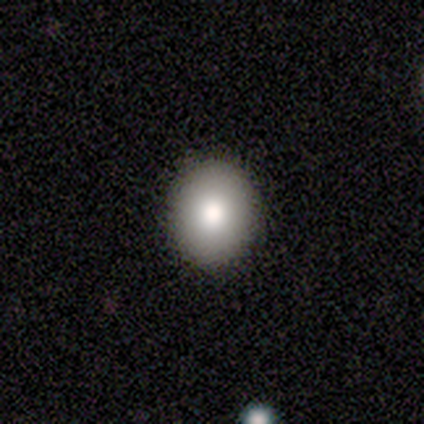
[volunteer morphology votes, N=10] smooth 80%, featured or disk 10%, star or artifact 10%. Down the decision tree: how rounded — round (50%, tied with in between); merging — none (100%).